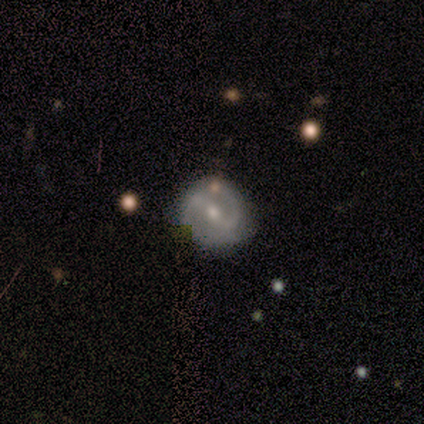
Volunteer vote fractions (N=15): Smooth or featured?
  - featured or disk: 80% *
  - smooth: 13%
  - star or artifact: 7%
Edge-on disk?
  - no: 100% *
  - yes: 0%
Bar?
  - weak: 50% *
  - strong: 42%
  - no: 8%
Spiral arms?
  - yes: 92% *
  - no: 8%
Spiral winding?
  - tight: 36% * (tied)
  - medium: 36% * (tied)
  - loose: 27%
Spiral arm count?
  - 2: 91% *
  - can't tell: 9%
  - 1: 0%
  - 3: 0%
  - 4: 0%
  - more than 4: 0%
Bulge size?
  - moderate: 50% * (tied)
  - small: 50% * (tied)
  - dominant: 0%
  - large: 0%
  - none: 0%
Merging?
  - none: 86% *
  - minor disturbance: 14%
  - major disturbance: 0%
  - merger: 0%